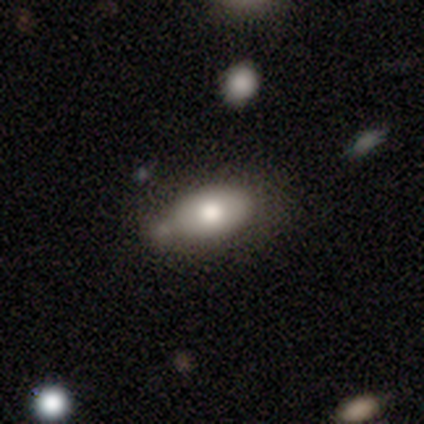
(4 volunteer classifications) A smooth galaxy with no disk features (75%) that is in between round and cigar-shaped (100%).

Vote fractions:
- Smooth or featured? smooth: 75% / featured or disk: 25% / star or artifact: 0%
- How rounded? in between: 100% / round: 0% / cigar-shaped: 0%
- Merging? none: 50% / major disturbance: 25% / merger: 25% / minor disturbance: 0%